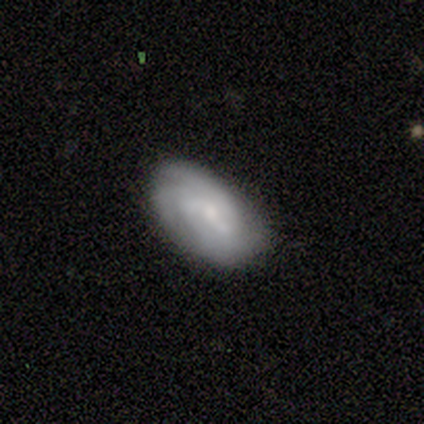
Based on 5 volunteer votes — Smooth or featured: featured or disk — 80% (smooth — 20%)
Edge-on disk: no — 100%
Bar: weak — 50% (tied with no — 50%)
Spiral arms: yes — 100%
Spiral winding: tight — 100%
Spiral arm count: 3 — 50% (tied with can't tell — 50%)
Bulge size: moderate — 50% (tied with small — 50%)
Merging: none — 60% (minor disturbance — 40%)